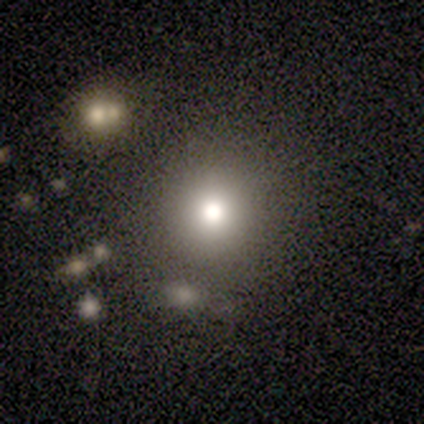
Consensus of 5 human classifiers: Smooth or featured? smooth (80%)
How rounded? round (100%)
Merging? none (100%)